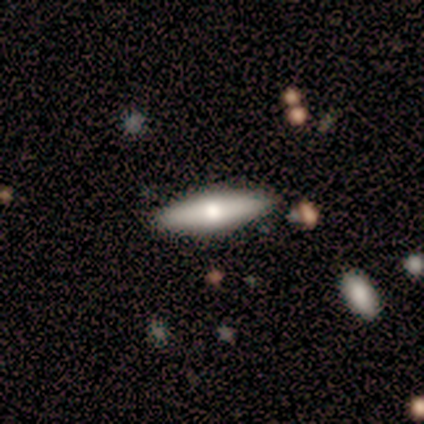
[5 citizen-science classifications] Overall: smooth (100%). How rounded: in between (60%; cigar-shaped 40%). Merging: none (100%).